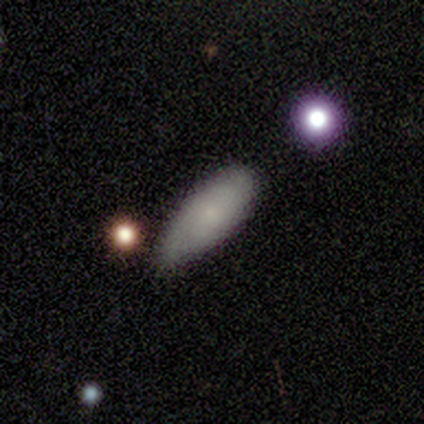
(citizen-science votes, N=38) smooth 89%, featured or disk 8%, star or artifact 3%. Down the decision tree: how rounded — in between (62%); merging — minor disturbance (54%).